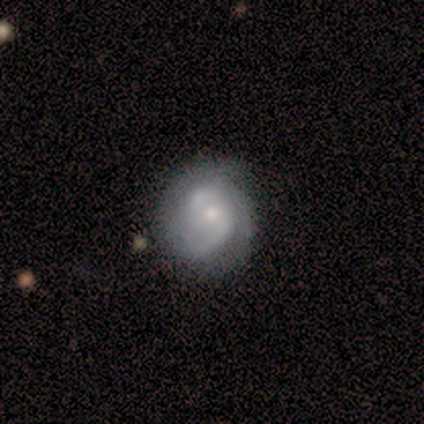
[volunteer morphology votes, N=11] Smooth or featured? 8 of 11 (73%) said featured or disk. Edge-on disk? 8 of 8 (100%) said no. Bar? 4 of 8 (50%, tied with no) said weak. Spiral arms? 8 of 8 (100%) said yes. Spiral winding? 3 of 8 (38%, tied with medium) said tight. Spiral arm count? 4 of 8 (50%) said 2. Bulge size? 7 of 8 (88%) said small. Merging? 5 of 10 (50%) said none.